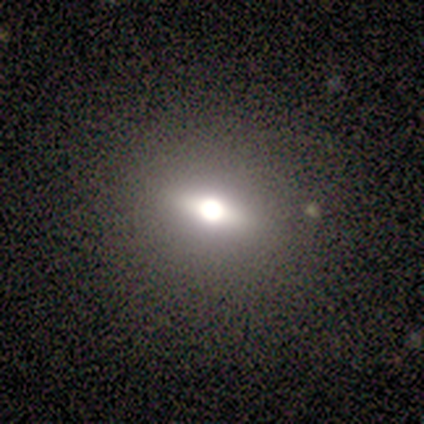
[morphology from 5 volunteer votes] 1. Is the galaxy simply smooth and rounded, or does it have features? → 80% smooth, 20% featured or disk, 0% star or artifact.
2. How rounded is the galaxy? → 50% round (tied), 50% in between (tied), 0% cigar-shaped.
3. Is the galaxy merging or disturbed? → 80% none, 20% minor disturbance, 0% major disturbance, 0% merger.